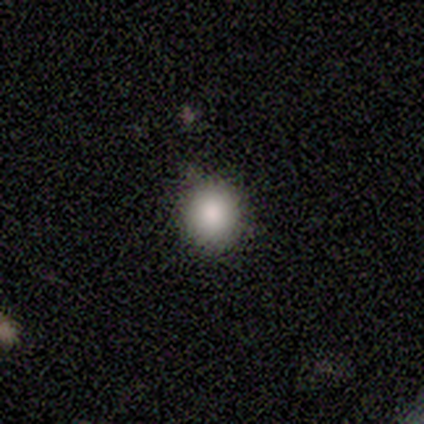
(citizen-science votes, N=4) Morphology: type=smooth (100%); roundness=round (100%); merging=none (75%).